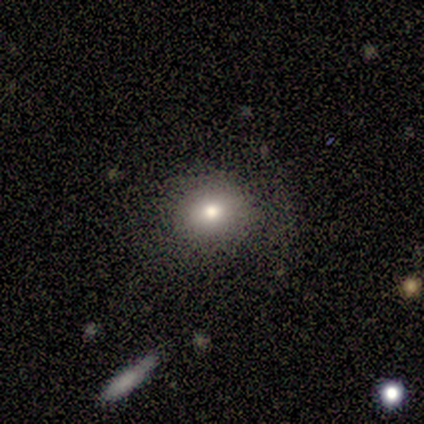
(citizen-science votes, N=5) A smooth galaxy with no disk features (60%) that is in between round and cigar-shaped (67%).

Vote fractions:
- Smooth or featured? smooth: 60% / star or artifact: 40% / featured or disk: 0%
- How rounded? in between: 67% / round: 33% / cigar-shaped: 0%
- Merging? none: 67% / major disturbance: 33% / minor disturbance: 0% / merger: 0%